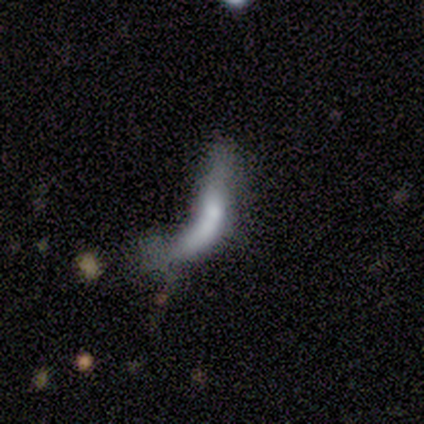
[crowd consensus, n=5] A smooth galaxy with no disk features (60%) that is cigar-shaped (100%). Merging: merger (60%).